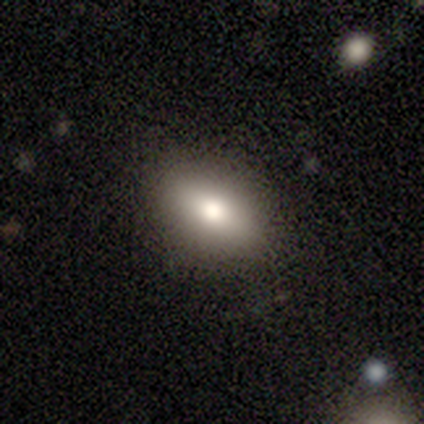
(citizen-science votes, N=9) This appears to be a smooth galaxy with no disk features (89%) that is in between round and cigar-shaped (88%). Merging: none (100%).